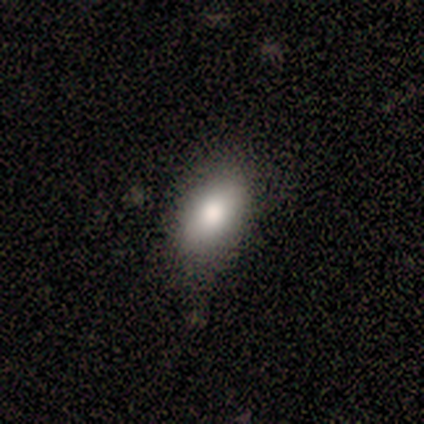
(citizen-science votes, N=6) Overall: smooth (67%). How rounded: in between (100%). Merging: none (80%).